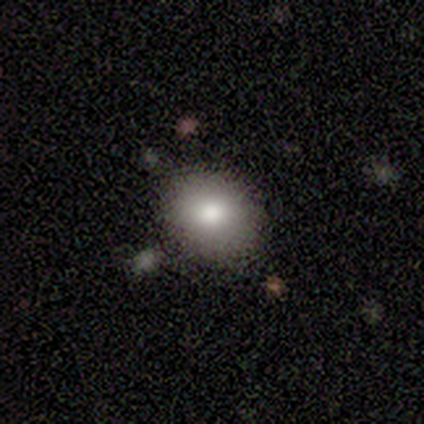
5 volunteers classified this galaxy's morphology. type=smooth (100%); roundness=round (60%); merging=none (80%).